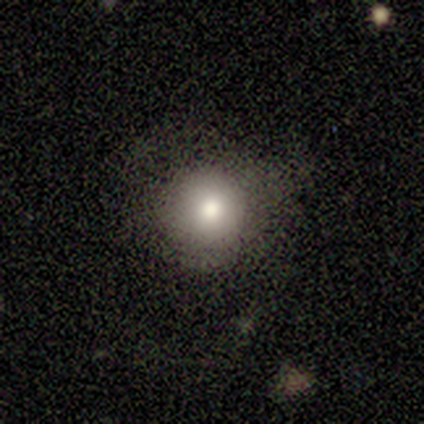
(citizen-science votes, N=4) Smooth or featured? 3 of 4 (75%) said smooth. How rounded? 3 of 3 (100%) said round. Merging? 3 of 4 (75%) said none.